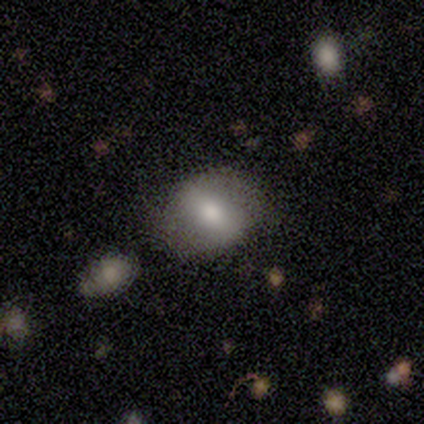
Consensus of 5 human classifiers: Morphology: type=smooth (60%); roundness=in between (67%); merging=none (60%).